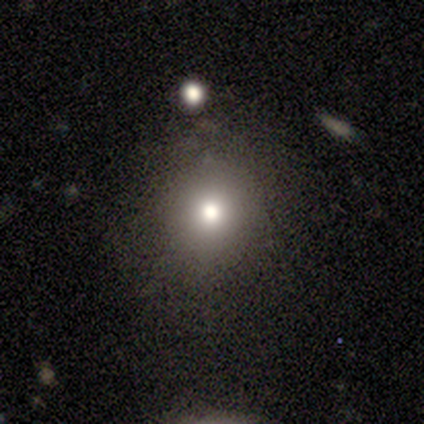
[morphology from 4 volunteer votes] smooth-or-featured: smooth: 75% | featured or disk: 25% | star or artifact: 0%
  how-rounded: round: 100% | in between: 0% | cigar-shaped: 0%
  merging: none: 50% (tied) | minor disturbance: 50% (tied) | major disturbance: 0% | merger: 0%